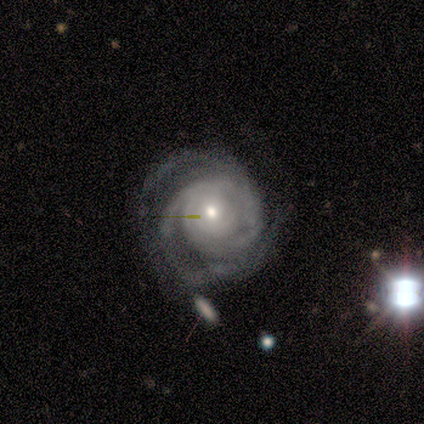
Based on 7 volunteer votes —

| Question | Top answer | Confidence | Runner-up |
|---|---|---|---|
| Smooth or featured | featured or disk | 100% | — |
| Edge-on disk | no | 100% | — |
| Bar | no | 71% | weak (29%) |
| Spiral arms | yes | 71% | no (29%) |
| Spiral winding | tight | 80% | medium (20%) |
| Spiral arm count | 3 | 80% | 2 (20%) |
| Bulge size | small | 57% | moderate (43%) |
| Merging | none | 71% | major disturbance (29%) |